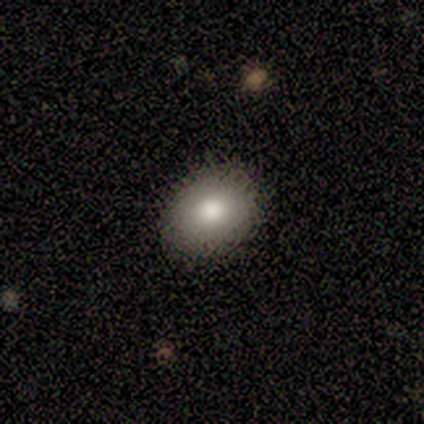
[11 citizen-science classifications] Q: Smooth or featured?
A: smooth (64%); runner-up: featured or disk (18%)
Q: How rounded?
A: in between (57%); runner-up: round (43%)
Q: Merging?
A: none (100%)